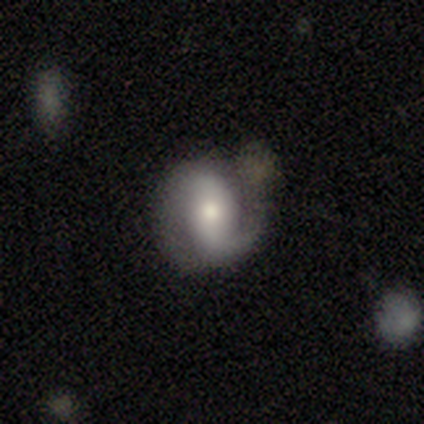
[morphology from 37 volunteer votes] Q: Smooth or featured?
A: featured or disk (68%); runner-up: smooth (30%)
Q: Edge-on disk?
A: no (96%); runner-up: yes (4%)
Q: Bar?
A: strong (38%); tied with: weak (38%)
Q: Spiral arms?
A: yes (96%); runner-up: no (4%)
Q: Spiral winding?
A: tight (35%); tied with: medium (35%)
Q: Spiral arm count?
A: 2 (83%); runner-up: 1 (17%)
Q: Bulge size?
A: moderate (54%); runner-up: small (25%)
Q: Merging?
A: none (53%); runner-up: minor disturbance (25%)